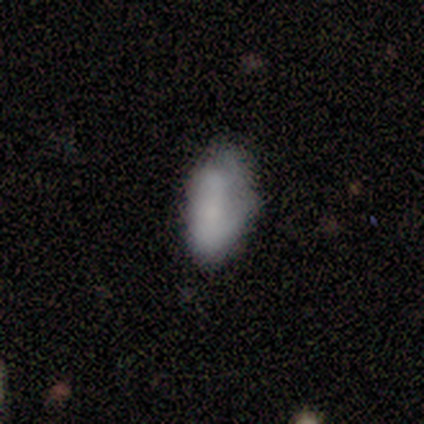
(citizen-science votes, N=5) A smooth galaxy with no disk features (100%) that is in between round and cigar-shaped (80%). Merging: none (60%).